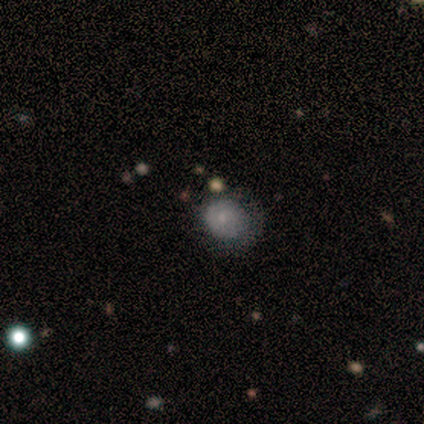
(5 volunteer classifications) A star or artifact, not a galaxy (60%).

Vote fractions:
- Smooth or featured? star or artifact: 60% / smooth: 20% / featured or disk: 20%